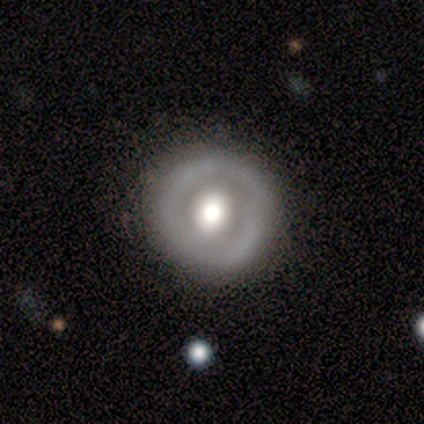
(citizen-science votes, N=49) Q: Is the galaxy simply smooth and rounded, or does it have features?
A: featured or disk — 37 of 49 (76%).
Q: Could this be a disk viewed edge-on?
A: no — 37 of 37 (100%).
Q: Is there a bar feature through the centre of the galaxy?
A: no — 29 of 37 (78%).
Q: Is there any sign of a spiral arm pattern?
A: no — 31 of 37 (84%).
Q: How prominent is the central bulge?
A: moderate — 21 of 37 (57%).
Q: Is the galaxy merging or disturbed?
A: none — 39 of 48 (81%).